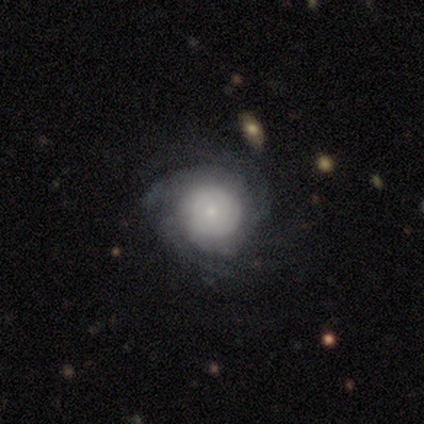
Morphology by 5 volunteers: A featured or disk galaxy (80%) with no bar (100%), tight (75%) spiral arms (100%) and a small central bulge (100%).

Vote fractions:
- Smooth or featured? featured or disk: 80% / smooth: 20% / star or artifact: 0%
- Edge-on disk? no: 100% / yes: 0%
- Bar? no: 100% / strong: 0% / weak: 0%
- Spiral arms? yes: 100% / no: 0%
- Spiral winding? tight: 75% / medium: 25% / loose: 0%
- Spiral arm count? can't tell: 50% / 3: 25% / 4: 25% / 1: 0% / 2: 0% / more than 4: 0%
- Bulge size? small: 100% / dominant: 0% / large: 0% / moderate: 0% / none: 0%
- Merging? none: 80% / minor disturbance: 20% / major disturbance: 0% / merger: 0%